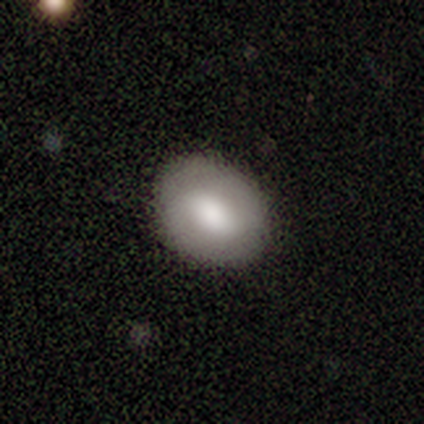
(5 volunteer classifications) Overall: smooth (100%). How rounded: round (80%). Merging: none (60%; minor disturbance 40%).